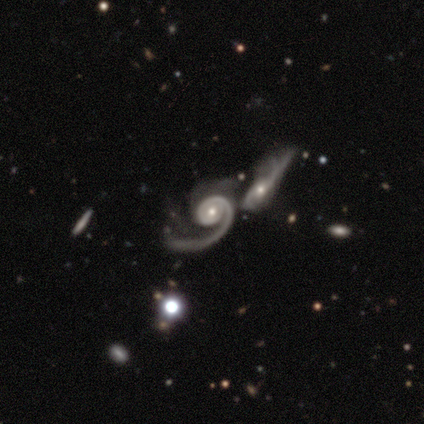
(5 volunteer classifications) Smooth or featured? 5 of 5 (100%) said featured or disk. Edge-on disk? 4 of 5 (80%) said no. Bar? 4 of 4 (100%) said no. Spiral arms? 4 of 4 (100%) said yes. Spiral winding? 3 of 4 (75%) said medium. Spiral arm count? 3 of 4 (75%) said 1. Bulge size? 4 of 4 (100%) said moderate. Merging? 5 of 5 (100%) said merger.